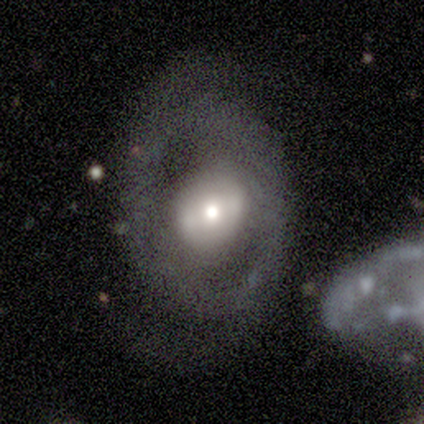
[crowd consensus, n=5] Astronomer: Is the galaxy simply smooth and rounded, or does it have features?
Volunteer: featured or disk — 60%.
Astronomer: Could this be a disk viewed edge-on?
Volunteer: no — 100%.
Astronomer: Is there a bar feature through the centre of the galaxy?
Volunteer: strong — 33%, tied with weak and no at 33%.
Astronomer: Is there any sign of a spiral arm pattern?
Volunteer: yes — 67%.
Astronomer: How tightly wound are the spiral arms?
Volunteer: loose — 100%.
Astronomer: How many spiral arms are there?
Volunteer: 2 — 100%.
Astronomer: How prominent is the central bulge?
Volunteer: moderate — 100%.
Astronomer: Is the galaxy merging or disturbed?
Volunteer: none — 75%.